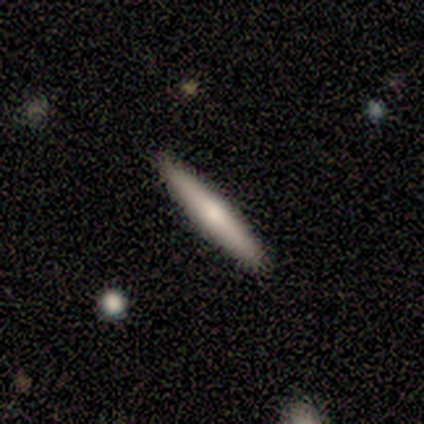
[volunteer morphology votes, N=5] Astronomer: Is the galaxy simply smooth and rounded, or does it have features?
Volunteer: smooth — 60% (runner-up: featured or disk, 40%).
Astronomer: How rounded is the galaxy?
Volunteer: cigar-shaped — 100%.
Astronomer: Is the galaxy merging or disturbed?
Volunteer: none — 100%.